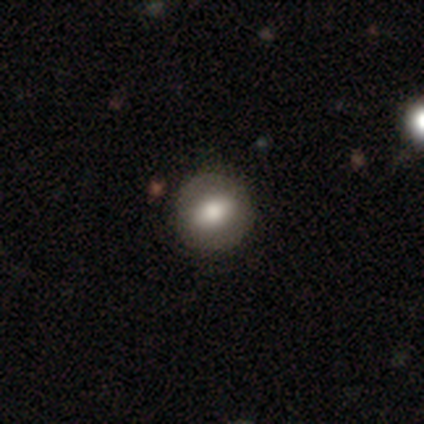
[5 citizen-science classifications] Smooth or featured? smooth (60%)
How rounded? round (67%)
Merging? none (75%)